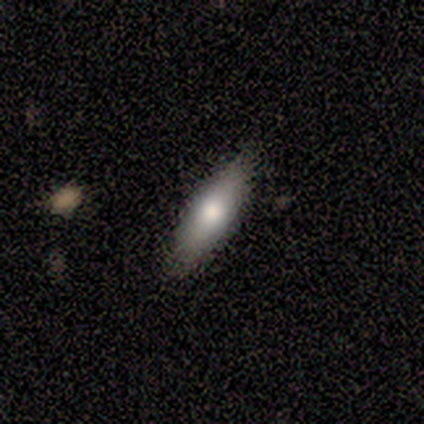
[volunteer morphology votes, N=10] type=smooth (80%); roundness=in between (75%); merging=none (89%).